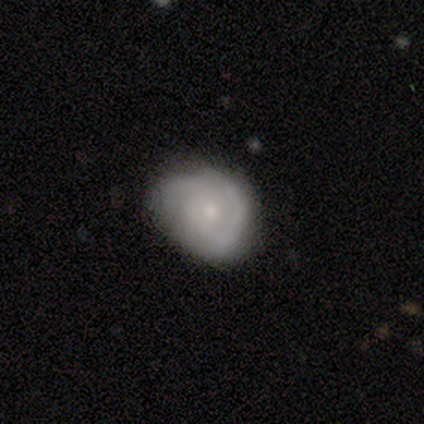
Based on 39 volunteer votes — Smooth or featured?
  - featured or disk: 72% *
  - smooth: 28%
  - star or artifact: 0%
Edge-on disk?
  - no: 100% *
  - yes: 0%
Bar?
  - no: 89% *
  - weak: 11%
  - strong: 0%
Spiral arms?
  - yes: 100% *
  - no: 0%
Spiral winding?
  - tight: 75% *
  - medium: 18%
  - loose: 7%
Spiral arm count?
  - 2: 50% *
  - can't tell: 29%
  - 3: 14%
  - 1: 7%
  - 4: 0%
  - more than 4: 0%
Bulge size?
  - small: 82% *
  - moderate: 14%
  - none: 4%
  - dominant: 0%
  - large: 0%
Merging?
  - none: 51% *
  - minor disturbance: 5%
  - major disturbance: 5%
  - merger: 0%